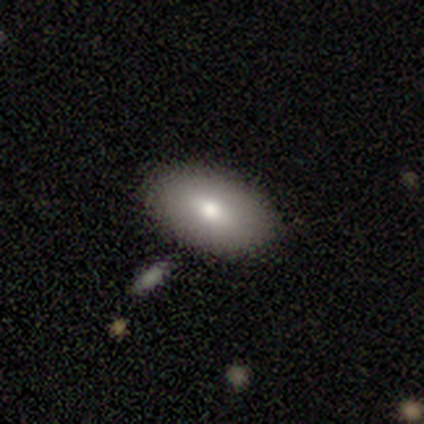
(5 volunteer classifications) Smooth or featured? smooth (100%)
How rounded? in between (100%)
Merging? none (80%)